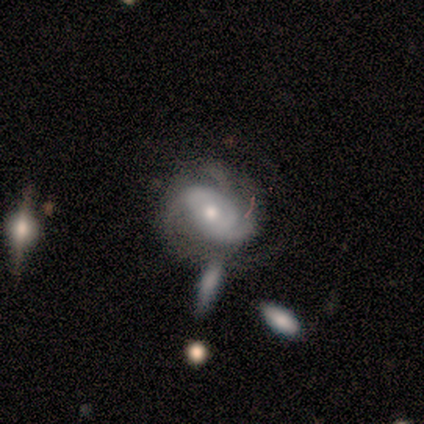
This is clearly a featured or disk galaxy (100%). It is clearly not viewed edge-on (100%). Bar: likely no (60%). Spiral arm pattern: clearly yes (100%). Spiral arm count: marginally 2 (40%). Spiral winding: clearly tight (100%). Central bulge: likely moderate (60%). Merging: marginally none (40%, tied with merger).